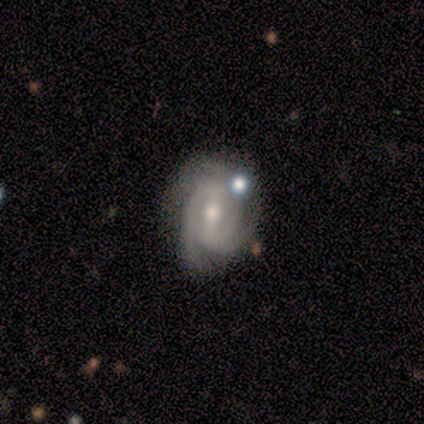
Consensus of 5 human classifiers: Q: Smooth or featured?
A: featured or disk (100%)
Q: Edge-on disk?
A: no (100%)
Q: Bar?
A: strong (60%); runner-up: weak (20%)
Q: Spiral arms?
A: yes (80%); runner-up: no (20%)
Q: Spiral winding?
A: tight (100%)
Q: Spiral arm count?
A: 2 (50%); tied with: 4 (50%)
Q: Bulge size?
A: moderate (60%); runner-up: small (40%)
Q: Merging?
A: none (100%)